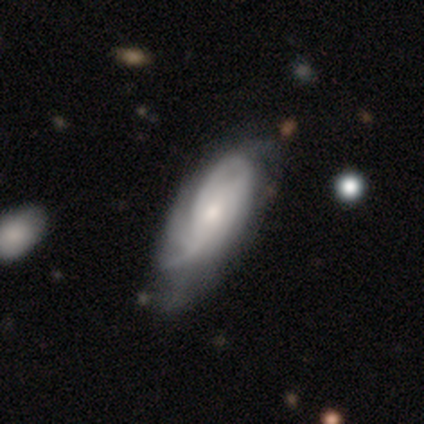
Q: Smooth or featured?
A: featured or disk (73%); runner-up: smooth (27%)
Q: Edge-on disk?
A: no (89%); runner-up: yes (11%)
Q: Bar?
A: no (77%); runner-up: weak (23%)
Q: Spiral arms?
A: yes (97%); runner-up: no (3%)
Q: Spiral winding?
A: tight (53%); runner-up: medium (37%)
Q: Spiral arm count?
A: can't tell (47%); runner-up: 2 (20%)
Q: Bulge size?
A: small (61%); runner-up: moderate (39%)
Q: Merging?
A: none (65%); runner-up: minor disturbance (25%)